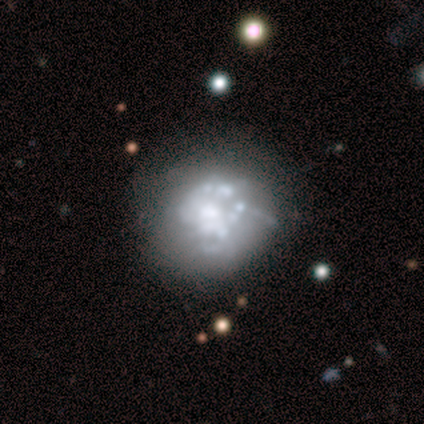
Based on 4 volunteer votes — A featured or disk galaxy (100%) with no bar (100%), no spiral arms (75%) and a moderate central bulge (50%).

Vote fractions:
- Smooth or featured? featured or disk: 100% / smooth: 0% / star or artifact: 0%
- Edge-on disk? no: 100% / yes: 0%
- Bar? no: 100% / strong: 0% / weak: 0%
- Spiral arms? no: 75% / yes: 25%
- Bulge size? moderate: 50% / small: 25% / none: 25% / dominant: 0% / large: 0%
- Merging? none: 75% / major disturbance: 25% / minor disturbance: 0% / merger: 0%